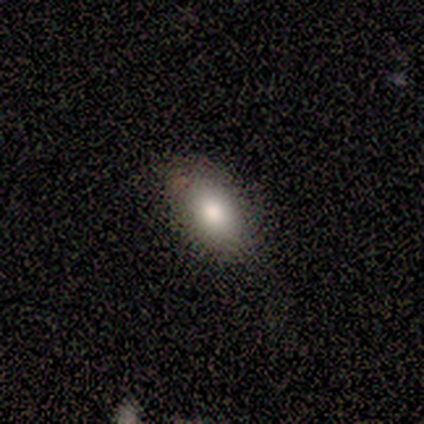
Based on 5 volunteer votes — Overall: smooth (60%; featured or disk 40%). How rounded: in between (100%). Merging: none (80%).